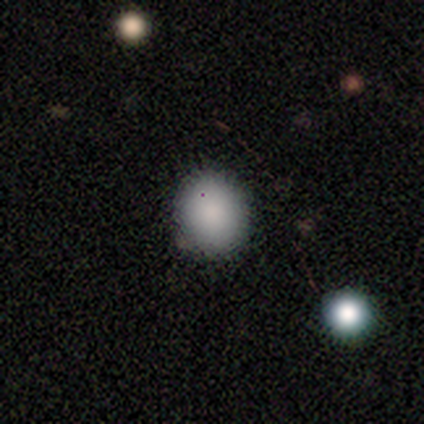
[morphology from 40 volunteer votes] smooth-or-featured: smooth: 85% | featured or disk: 10% | star or artifact: 5%
  how-rounded: round: 79% | in between: 21% | cigar-shaped: 0%
  merging: none: 82% | minor disturbance: 16% | major disturbance: 3% | merger: 0%